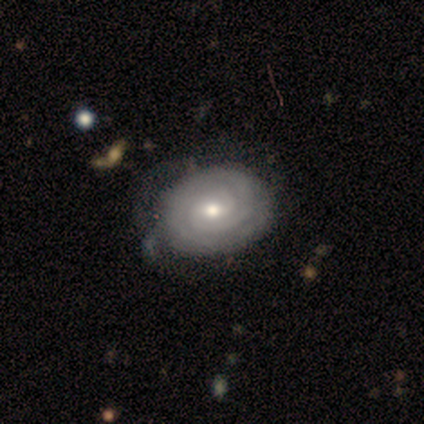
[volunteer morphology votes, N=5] Volunteers were most divided on "bar" (2-way tie): weak: 50%, no: 50%, strong: 0%; "spiral arm count" (2-way tie): 2: 50%, can't tell: 50%, 1: 0%, 3: 0%, 4: 0%, more than 4: 0%; "merging" (2-way tie): none: 50%, minor disturbance: 50%, major disturbance: 0%, merger: 0%. More confident: edge-on disk — no (100%); spiral arms — yes (100%); spiral winding — tight (100%); bulge size — moderate (100%); smooth or featured — featured or disk (80%).